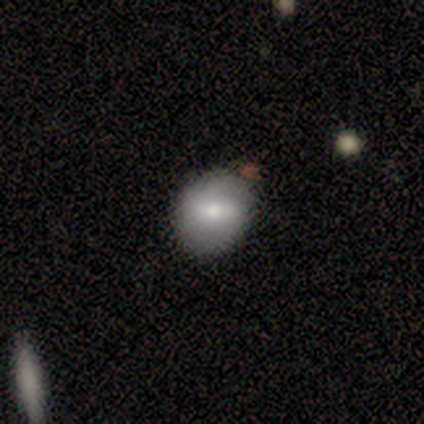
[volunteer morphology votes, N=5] A smooth galaxy with no disk features (60%) that is round (67%).

Vote fractions:
- Smooth or featured? smooth: 60% / featured or disk: 40% / star or artifact: 0%
- How rounded? round: 67% / in between: 33% / cigar-shaped: 0%
- Merging? none: 80% / minor disturbance: 20% / major disturbance: 0% / merger: 0%